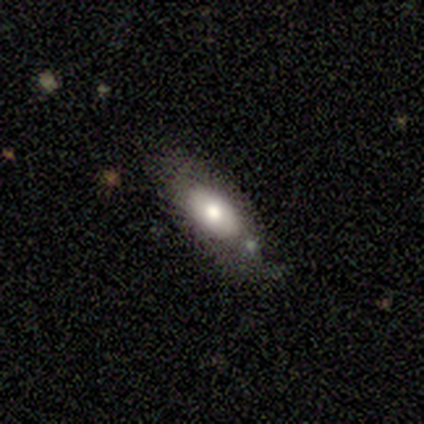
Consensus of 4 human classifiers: smooth_or_featured: smooth (p=1.00)
how_rounded: in between (p=0.75) [alt: cigar-shaped p=0.25]
merging: none (p=0.50) [alt: minor disturbance p=0.25]